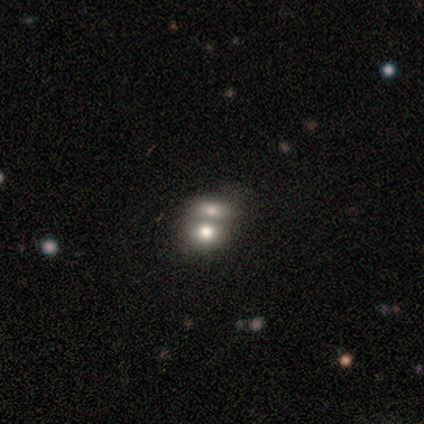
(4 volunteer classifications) smooth 50% (tied), featured or disk 50% (tied), star or artifact 0%. Down the decision tree: how rounded — round (50%, tied with in between); merging — merger (100%).